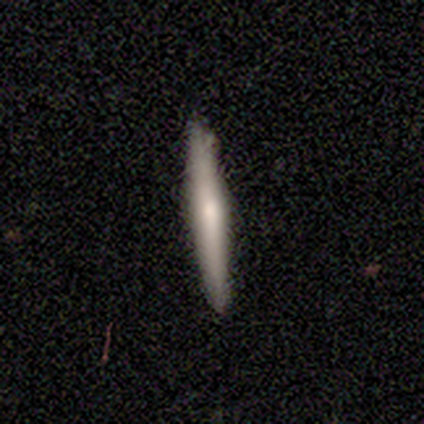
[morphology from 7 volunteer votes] Smooth or featured: smooth — 57% (featured or disk — 29%)
How rounded: cigar-shaped — 100%
Merging: none — 83% (minor disturbance — 17%)